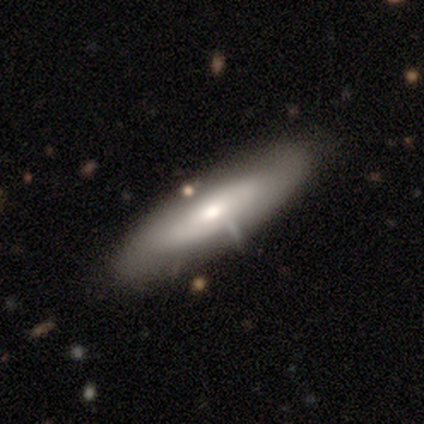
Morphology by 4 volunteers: Volunteers were most divided on "edge-on bulge" (2-way tie): boxy: 50%, rounded: 50%, none: 0%. More confident: smooth or featured — featured or disk (75%); edge-on disk — yes (67%); merging — minor disturbance (50%).